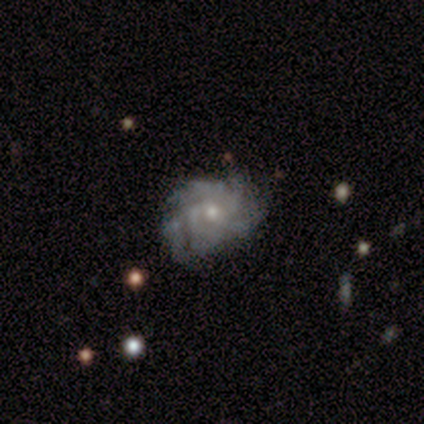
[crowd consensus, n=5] Volunteers were most divided on "spiral arm count": 4: 60%, 3: 20%, can't tell: 20%, 1: 0%, 2: 0%, more than 4: 0%. More confident: smooth or featured — featured or disk (100%); edge-on disk — no (100%); bar — no (100%); spiral arms — yes (100%); spiral winding — tight (80%); bulge size — small (80%); merging — none (80%).